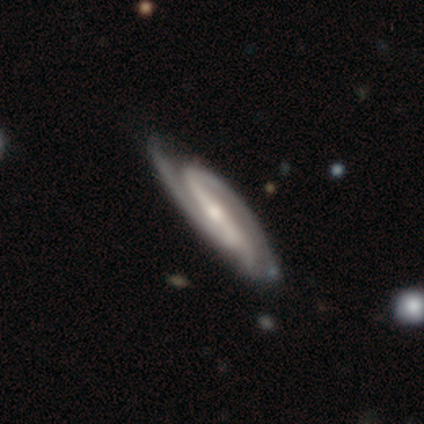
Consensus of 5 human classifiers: smooth-or-featured: featured or disk: 100% | smooth: 0% | star or artifact: 0%
  disk-edge-on: no: 80% | yes: 20%
    bar: strong: 50% (tied) | no: 50% (tied) | weak: 0%
    has-spiral-arms: yes: 100% | no: 0%
      spiral-winding: tight: 50% (tied) | medium: 50% (tied) | loose: 0%
      spiral-arm-count: 2: 75% | can't tell: 25% | 1: 0% | 3: 0% | 4: 0% | more than 4: 0%
    bulge-size: small: 100% | dominant: 0% | large: 0% | moderate: 0% | none: 0%
  merging: none: 100% | minor disturbance: 0% | major disturbance: 0% | merger: 0%